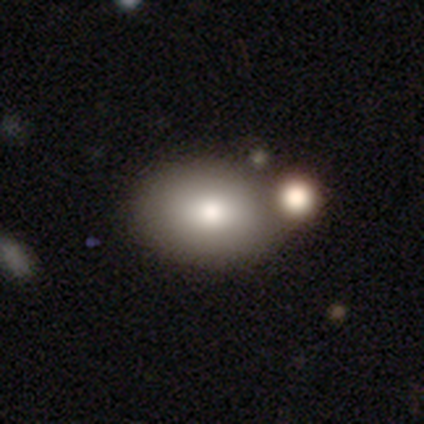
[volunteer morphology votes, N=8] This is clearly a smooth galaxy (100%). How rounded: likely in between (75%). Merging: likely none (75%).